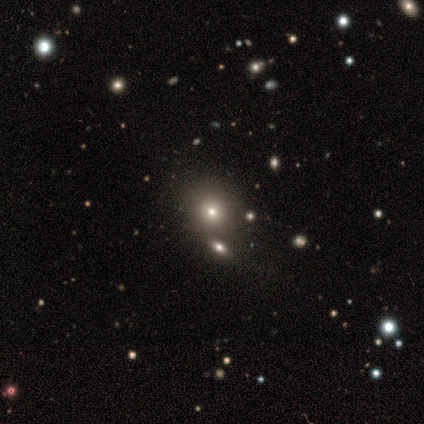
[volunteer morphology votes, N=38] smooth-or-featured: smooth: 55% | star or artifact: 32% | featured or disk: 13%
  how-rounded: round: 76% | in between: 19% | cigar-shaped: 5%
  merging: none: 65% | merger: 27% | minor disturbance: 4% | major disturbance: 4%